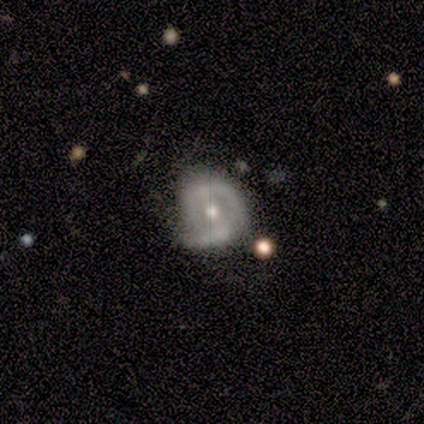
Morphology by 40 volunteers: Smooth or featured? featured or disk (75%)
Edge-on disk? no (100%)
Bar? weak (63%)
Spiral arms? yes (80%)
Spiral winding? tight (38%, tied with medium)
Spiral arm count? 1 (38%)
Bulge size? moderate (50%)
Merging? none (63%)